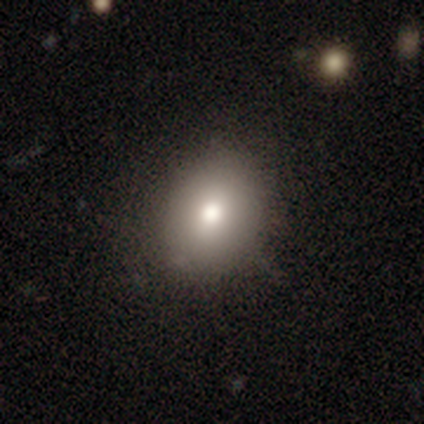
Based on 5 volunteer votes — Overall: smooth (100%). How rounded: in between (80%). Merging: none (100%).